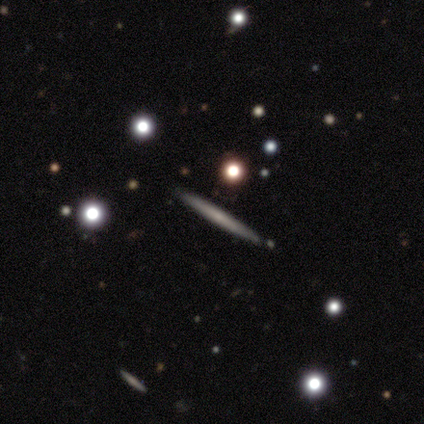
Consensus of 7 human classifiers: A featured or disk galaxy (71%) viewed edge-on (80%) with no central bulge (75%). Merging: none (86%).